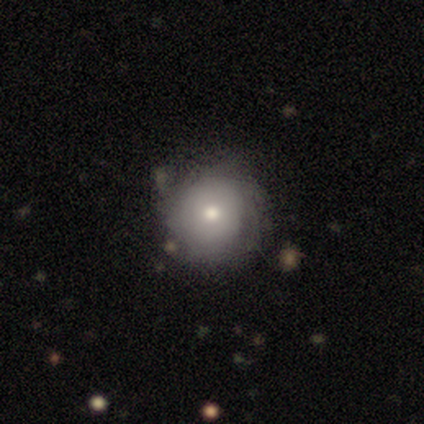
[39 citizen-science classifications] Smooth or featured? smooth (51%)
How rounded? round (100%)
Merging? none (69%)